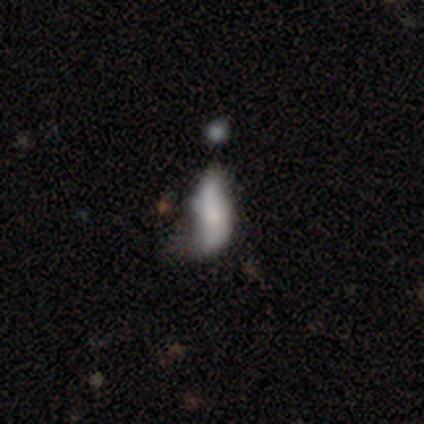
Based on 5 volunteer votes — A smooth galaxy with no disk features (80%) that is cigar-shaped (75%). Merging: major disturbance (40%, tied with merger).